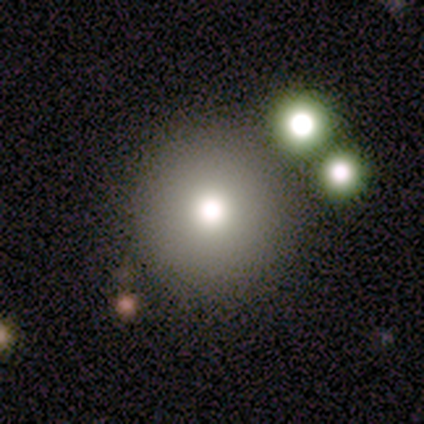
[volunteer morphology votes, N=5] This appears to be a smooth galaxy with no disk features (100%) that is round (80%). Merging: none (100%).